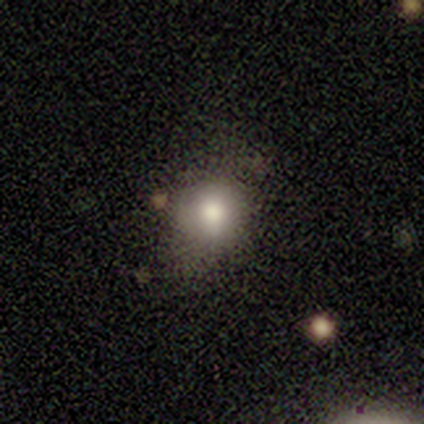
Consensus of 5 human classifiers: Volunteers were most divided on "how rounded": round: 75%, in between: 25%, cigar-shaped: 0%. More confident: smooth or featured — smooth (80%); merging — none (80%).